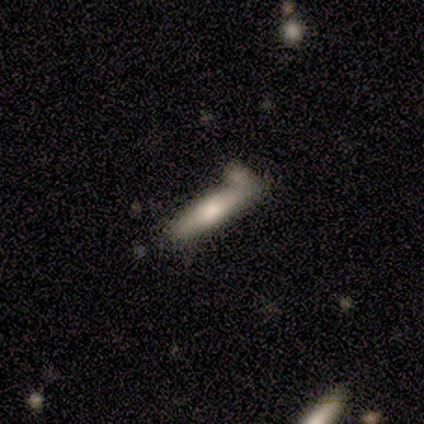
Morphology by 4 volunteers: Q: Smooth or featured?
A: smooth (75%); runner-up: featured or disk (25%)
Q: How rounded?
A: cigar-shaped (100%)
Q: Merging?
A: none (50%); tied with: minor disturbance (50%)